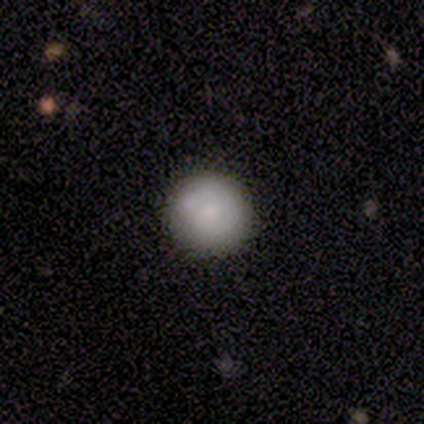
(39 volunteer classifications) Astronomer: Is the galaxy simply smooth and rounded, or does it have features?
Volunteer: smooth — 64%.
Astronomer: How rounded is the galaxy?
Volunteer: round — 88%.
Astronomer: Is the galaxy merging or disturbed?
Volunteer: none — 90%.